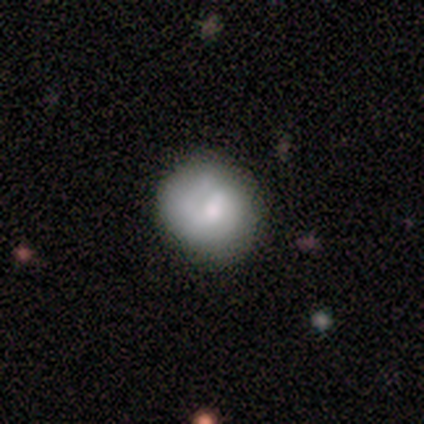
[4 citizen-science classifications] This appears to be a smooth galaxy with no disk features (100%) that is round (100%). Merging: none (100%).